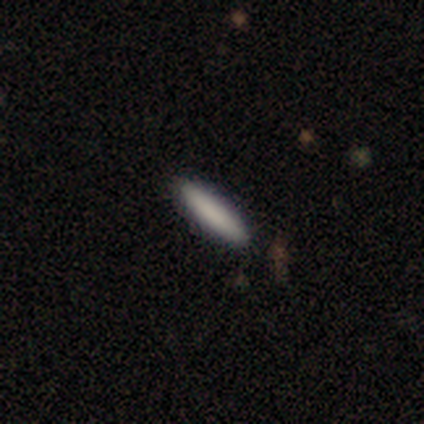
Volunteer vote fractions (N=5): This is clearly a smooth galaxy (100%). How rounded: clearly cigar-shaped (80%). Merging: clearly none (80%).